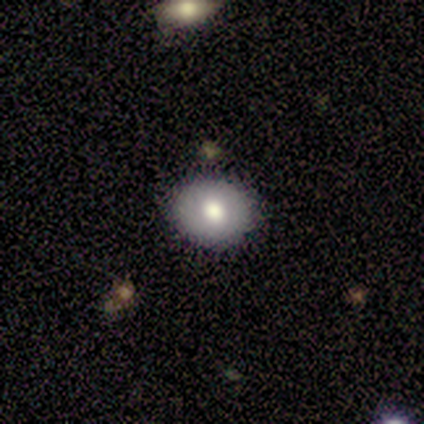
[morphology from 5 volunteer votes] A smooth galaxy with no disk features (40%, tied with featured or disk) that is round (50%, tied with in between).

Vote fractions:
- Smooth or featured? smooth: 40% (tied) / featured or disk: 40% (tied) / star or artifact: 20%
- How rounded? round: 50% (tied) / in between: 50% (tied) / cigar-shaped: 0%
- Merging? none: 75% / minor disturbance: 25% / major disturbance: 0% / merger: 0%